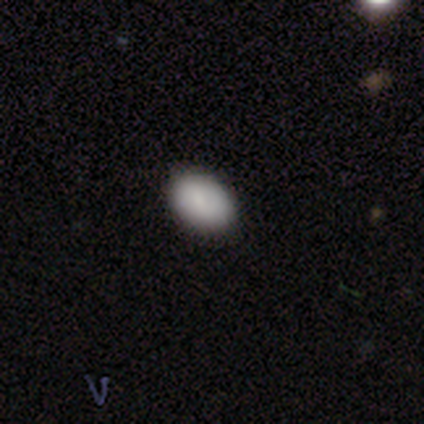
A smooth galaxy with no disk features (80%) that is in between round and cigar-shaped (75%).

Vote fractions:
- Smooth or featured? smooth: 80% / star or artifact: 20% / featured or disk: 0%
- How rounded? in between: 75% / round: 25% / cigar-shaped: 0%
- Merging? none: 75% / minor disturbance: 25% / major disturbance: 0% / merger: 0%